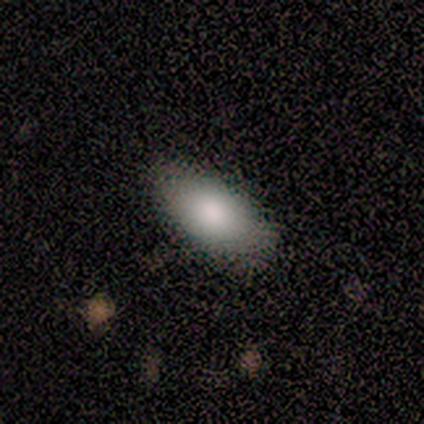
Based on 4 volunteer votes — A smooth galaxy with no disk features (100%) that is in between round and cigar-shaped (75%). Merging: none (100%).